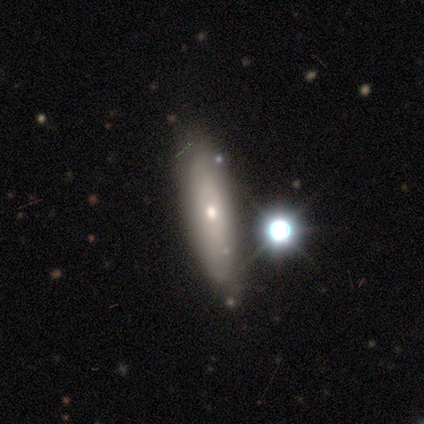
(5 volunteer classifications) Q: Smooth or featured?
A: featured or disk (60%); runner-up: smooth (40%)
Q: Edge-on disk?
A: yes (67%); runner-up: no (33%)
Q: Edge-on bulge?
A: none (50%); tied with: rounded (50%)
Q: Merging?
A: none (100%)